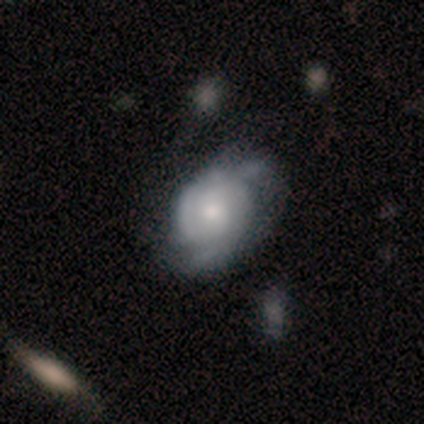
Smooth or featured? 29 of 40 (72%) said featured or disk. Edge-on disk? 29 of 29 (100%) said no. Bar? 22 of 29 (76%) said no. Spiral arms? 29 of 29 (100%) said yes. Spiral winding? 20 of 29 (69%) said tight. Spiral arm count? 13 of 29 (45%) said 2. Bulge size? 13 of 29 (45%, tied with small) said moderate. Merging? 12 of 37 (32%) said none.